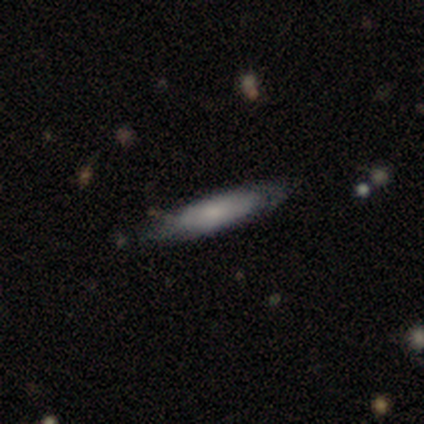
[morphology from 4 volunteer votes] Smooth or featured? 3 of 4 (75%) said smooth. How rounded? 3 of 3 (100%) said cigar-shaped. Merging? 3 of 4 (75%) said none.